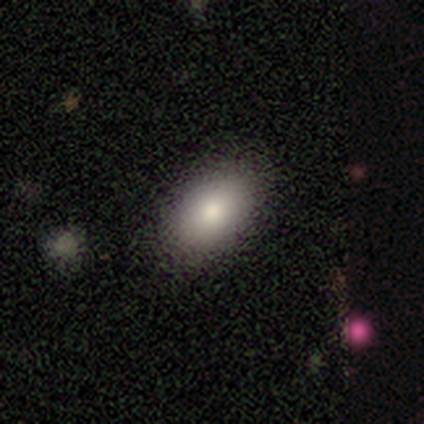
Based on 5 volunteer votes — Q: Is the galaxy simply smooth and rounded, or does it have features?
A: smooth — 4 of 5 (80%).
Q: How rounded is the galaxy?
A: in between — 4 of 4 (100%).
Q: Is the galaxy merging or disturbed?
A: none — 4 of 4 (100%).